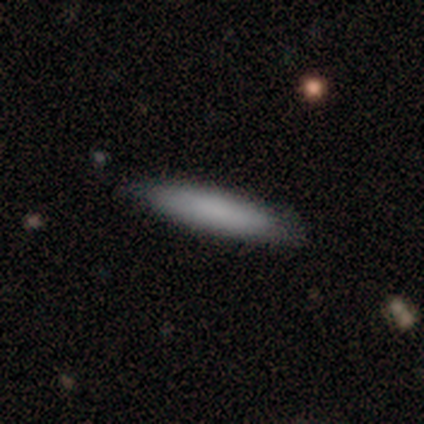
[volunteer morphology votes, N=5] smooth 100%, featured or disk 0%, star or artifact 0%. Down the decision tree: how rounded — cigar-shaped (100%); merging — none (100%).